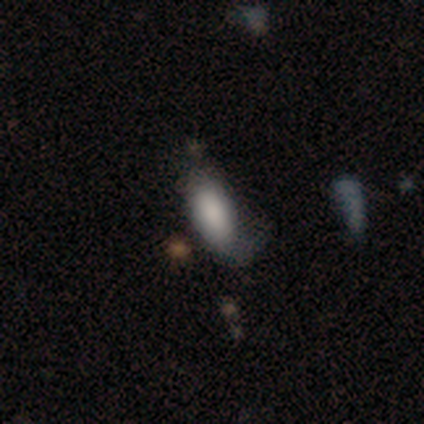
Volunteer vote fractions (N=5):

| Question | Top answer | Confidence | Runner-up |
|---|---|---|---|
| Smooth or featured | smooth | 80% | star or artifact (20%) |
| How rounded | in between | 100% | — |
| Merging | minor disturbance | 75% | none (25%) |